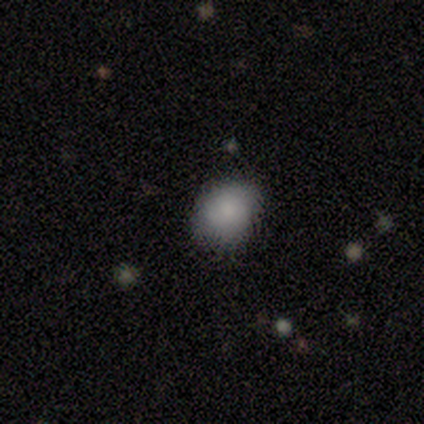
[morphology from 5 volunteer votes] Smooth or featured? smooth (100%)
How rounded? in between (60%)
Merging? none (100%)